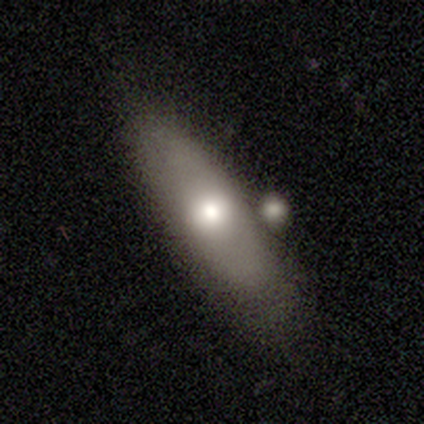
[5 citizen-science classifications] Smooth or featured? 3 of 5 (60%) said smooth. How rounded? 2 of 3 (67%) said in between. Merging? 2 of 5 (40%, tied with merger) said minor disturbance.